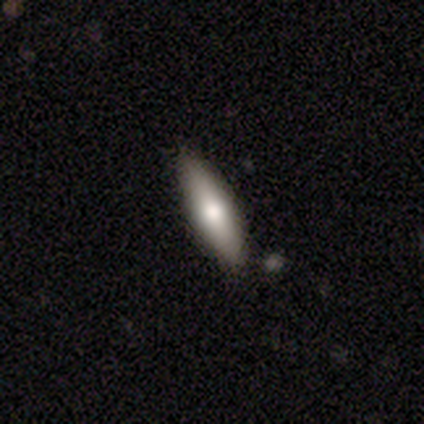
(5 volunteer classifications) Smooth or featured? featured or disk (60%)
Edge-on disk? yes (100%)
Edge-on bulge? rounded (67%)
Merging? minor disturbance (60%)